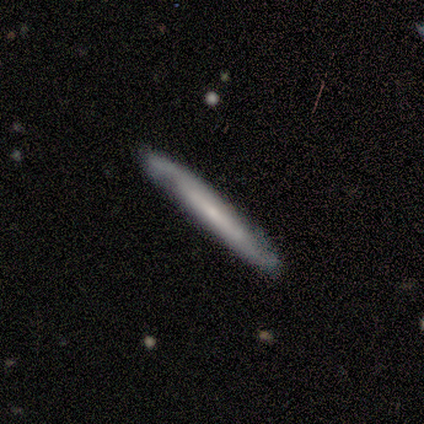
This appears to be a smooth galaxy with no disk features (40%, tied with star or artifact) that is cigar-shaped (100%). Merging: none (67%).